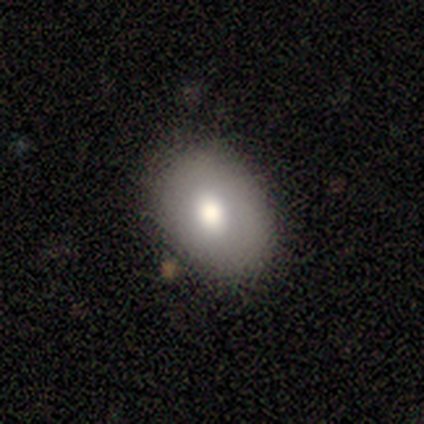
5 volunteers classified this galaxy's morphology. Q: Smooth or featured?
A: featured or disk (60%); runner-up: smooth (40%)
Q: Edge-on disk?
A: no (100%)
Q: Bar?
A: no (100%)
Q: Spiral arms?
A: no (100%)
Q: Bulge size?
A: moderate (100%)
Q: Merging?
A: none (100%)